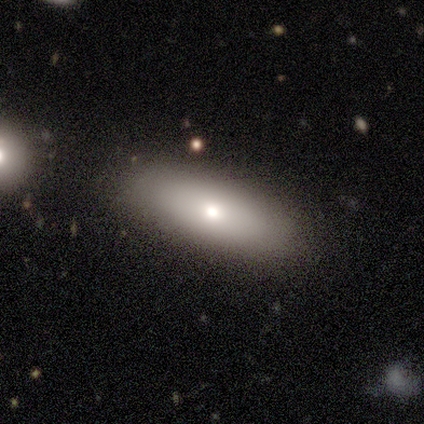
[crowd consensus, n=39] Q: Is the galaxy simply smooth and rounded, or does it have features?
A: smooth — 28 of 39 (72%).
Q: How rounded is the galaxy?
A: in between — 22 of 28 (79%).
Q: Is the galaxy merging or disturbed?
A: none — 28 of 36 (78%).